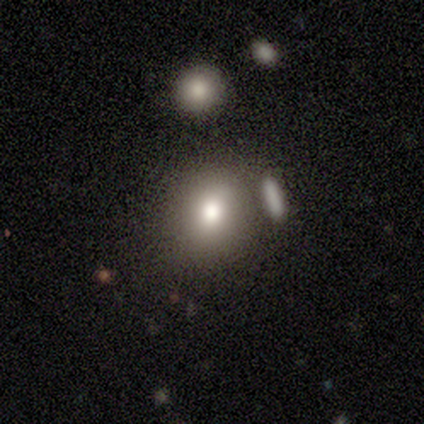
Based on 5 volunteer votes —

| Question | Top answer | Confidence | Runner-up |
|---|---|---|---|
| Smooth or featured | smooth | 100% | — |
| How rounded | in between | 100% | — |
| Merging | none | 80% | merger (20%) |